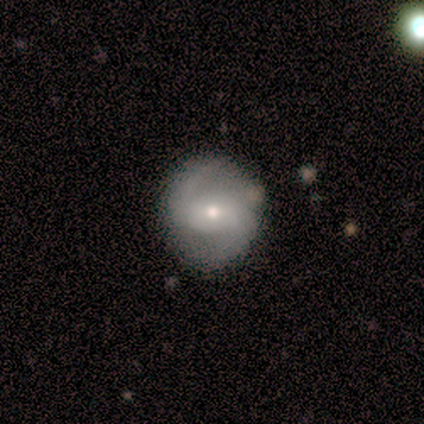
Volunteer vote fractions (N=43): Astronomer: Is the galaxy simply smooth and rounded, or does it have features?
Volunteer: featured or disk — 79%.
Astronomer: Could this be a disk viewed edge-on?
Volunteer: no — 100%.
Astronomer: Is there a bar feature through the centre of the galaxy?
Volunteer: weak — 44% (runner-up: no, 32%).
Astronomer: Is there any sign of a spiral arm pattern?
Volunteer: yes — 100%.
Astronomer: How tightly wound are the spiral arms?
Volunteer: loose — 47% (runner-up: medium, 44%).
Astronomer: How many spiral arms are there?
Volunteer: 2 — 85%.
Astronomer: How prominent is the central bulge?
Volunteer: small — 50% (runner-up: moderate, 44%).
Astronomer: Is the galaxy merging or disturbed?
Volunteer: none — 83%.